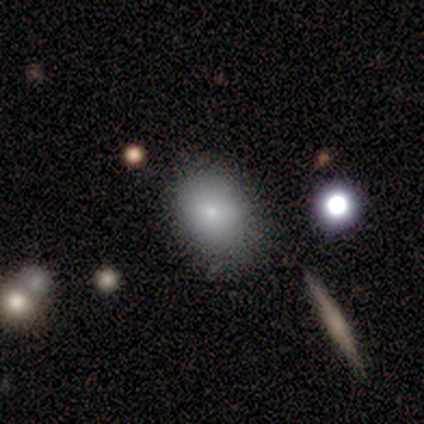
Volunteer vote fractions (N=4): Overall: smooth (50%, tied with featured or disk). How rounded: round (50%, tied with in between). Merging: none (75%).